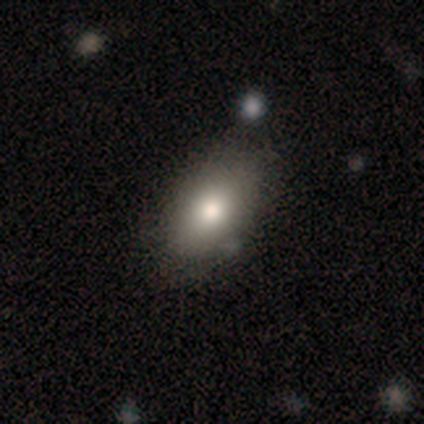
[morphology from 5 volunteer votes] This appears to be a smooth galaxy with no disk features (100%) that is in between round and cigar-shaped (80%). Merging: minor disturbance (60%).